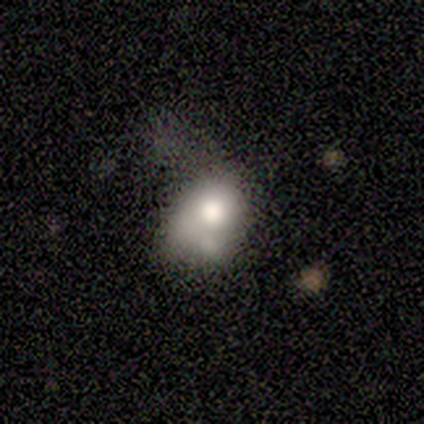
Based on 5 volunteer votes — Q: Smooth or featured?
A: smooth (60%); runner-up: featured or disk (20%)
Q: How rounded?
A: in between (100%)
Q: Merging?
A: minor disturbance (100%)